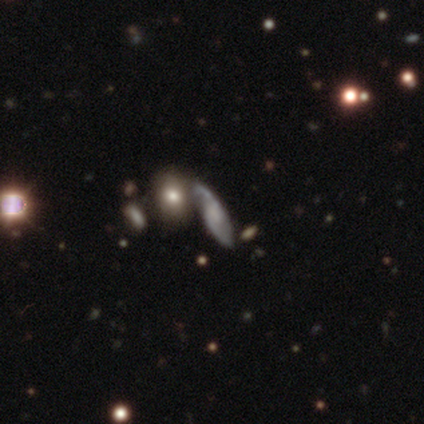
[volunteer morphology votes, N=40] smooth_or_featured: featured or disk (p=0.65) [alt: smooth p=0.25]
disk_edge_on: no (p=0.65) [alt: yes p=0.35]
bar: no (p=0.59) [alt: weak p=0.29]
has_spiral_arms: yes (p=0.82) [alt: no p=0.18]
spiral_winding: medium (p=0.43) [alt: loose p=0.36]
spiral_arm_count: 2 (p=0.57) [alt: can't tell p=0.21]
bulge_size: none (p=0.47) [alt: small p=0.35]
merging: none (p=0.44) [alt: merger p=0.25]